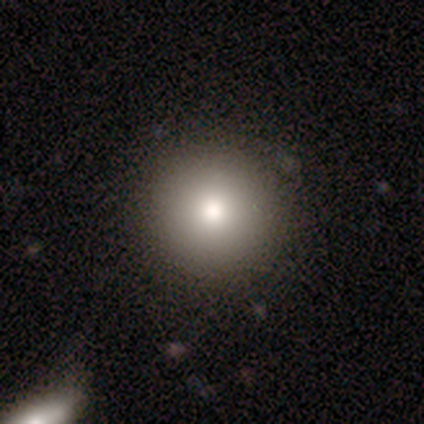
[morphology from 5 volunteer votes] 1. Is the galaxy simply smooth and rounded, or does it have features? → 100% smooth, 0% featured or disk, 0% star or artifact.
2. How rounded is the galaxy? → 100% round, 0% in between, 0% cigar-shaped.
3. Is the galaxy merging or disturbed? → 80% none, 20% minor disturbance, 0% major disturbance, 0% merger.